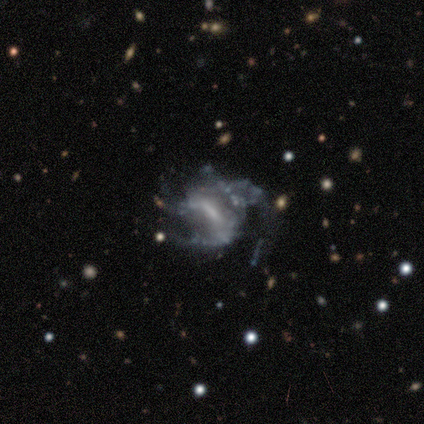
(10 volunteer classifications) Overall: featured or disk (90%). Edge-on disk: no (100%). Bar: strong (33%, tied with weak and no). Spiral arms: yes (67%; no 33%). Spiral arm count: 2 (50%, tied with can't tell). Spiral winding: medium (67%; loose 33%). Bulge size: none (56%; small 33%). Merging: major disturbance (80%).